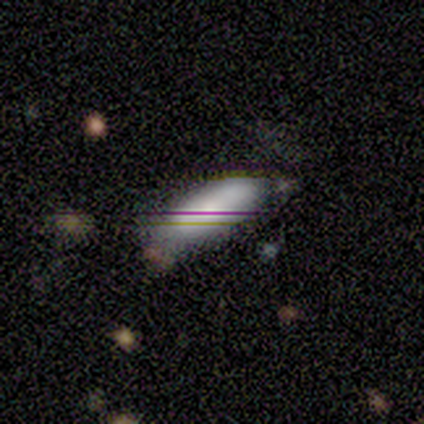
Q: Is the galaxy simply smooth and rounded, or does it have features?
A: smooth — 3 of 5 (60%).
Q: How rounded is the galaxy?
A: in between — 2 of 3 (67%).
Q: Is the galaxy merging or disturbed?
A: none — 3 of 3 (100%).